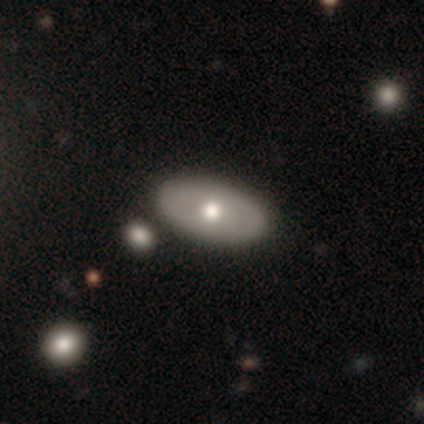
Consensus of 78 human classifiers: smooth_or_featured: smooth (p=0.55) [alt: featured or disk p=0.40]
how_rounded: in between (p=0.88) [alt: round p=0.12]
merging: none (p=0.45) [alt: merger p=0.19]